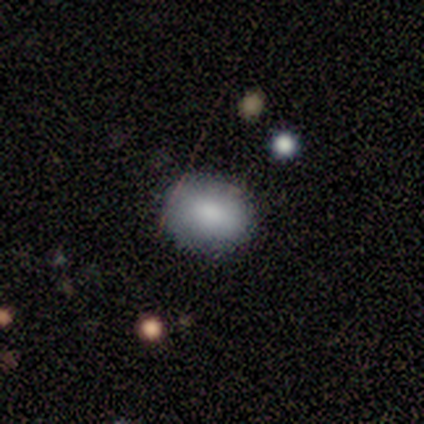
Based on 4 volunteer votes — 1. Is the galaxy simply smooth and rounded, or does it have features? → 100% smooth, 0% featured or disk, 0% star or artifact.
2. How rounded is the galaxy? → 75% in between, 25% round, 0% cigar-shaped.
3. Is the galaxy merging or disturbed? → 100% none, 0% minor disturbance, 0% major disturbance, 0% merger.